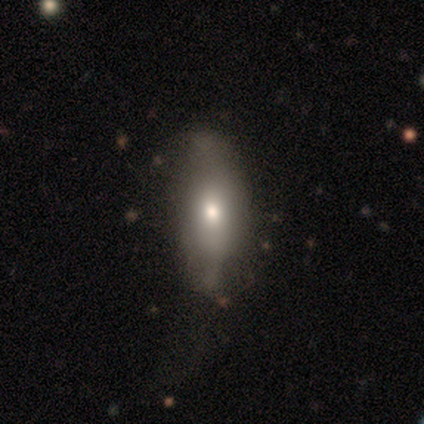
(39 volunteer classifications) A smooth galaxy with no disk features (51%) that is in between round and cigar-shaped (60%).

Vote fractions:
- Smooth or featured? smooth: 51% / featured or disk: 41% / star or artifact: 8%
- How rounded? in between: 60% / cigar-shaped: 40% / round: 0%
- Merging? none: 50% / minor disturbance: 31% / major disturbance: 17% / merger: 3%